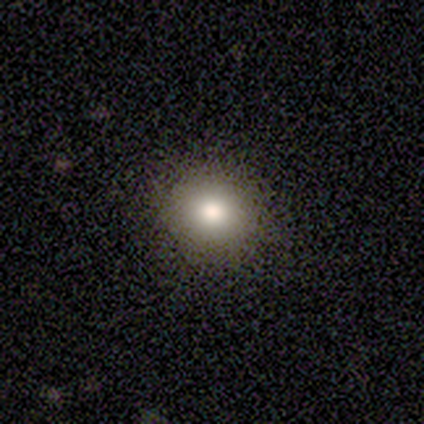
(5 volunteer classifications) Smooth or featured? 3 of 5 (60%) said smooth. How rounded? 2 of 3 (67%) said in between. Merging? 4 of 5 (80%) said none.